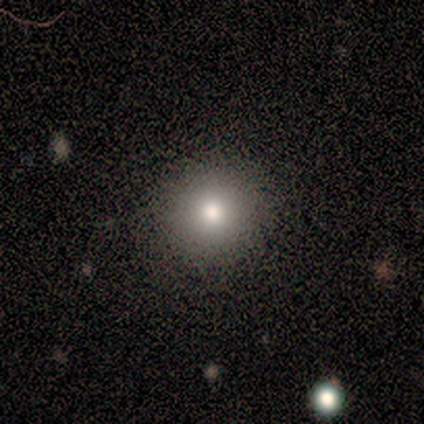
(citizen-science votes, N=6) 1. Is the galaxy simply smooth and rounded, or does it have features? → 100% smooth, 0% featured or disk, 0% star or artifact.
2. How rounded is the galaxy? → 83% round, 17% cigar-shaped, 0% in between.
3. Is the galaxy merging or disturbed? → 100% none, 0% minor disturbance, 0% major disturbance, 0% merger.